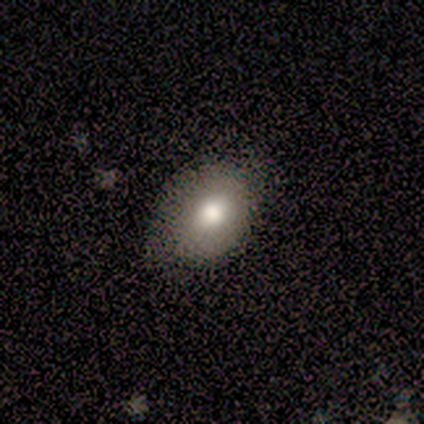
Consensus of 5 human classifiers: Smooth or featured?
  - smooth: 40% * (tied)
  - featured or disk: 40% * (tied)
  - star or artifact: 20%
How rounded?
  - round: 50% * (tied)
  - in between: 50% * (tied)
  - cigar-shaped: 0%
Merging?
  - none: 50% * (tied)
  - minor disturbance: 50% * (tied)
  - major disturbance: 0%
  - merger: 0%